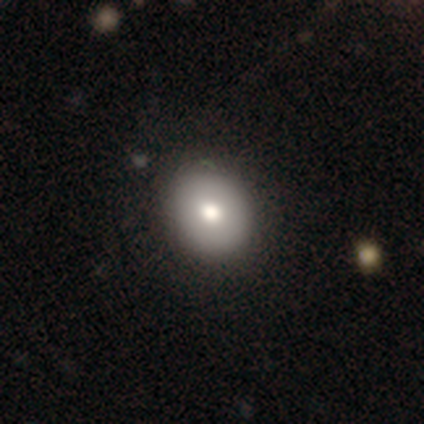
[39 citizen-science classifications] This is clearly a smooth galaxy (85%). How rounded: likely round (73%). Merging: clearly none (92%).